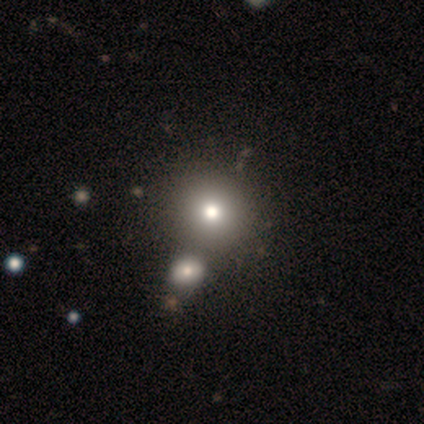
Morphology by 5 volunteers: Q: Smooth or featured?
A: smooth (60%); runner-up: star or artifact (40%)
Q: How rounded?
A: round (100%)
Q: Merging?
A: none (100%)